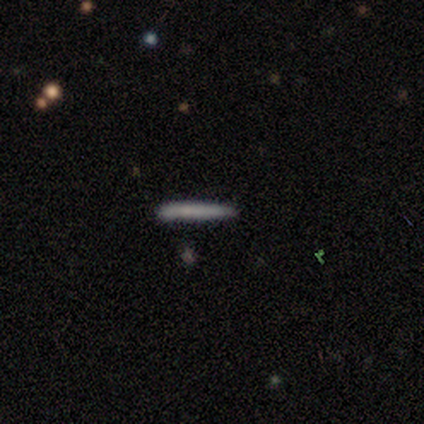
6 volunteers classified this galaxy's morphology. Smooth or featured? smooth (83%)
How rounded? cigar-shaped (100%)
Merging? none (83%)